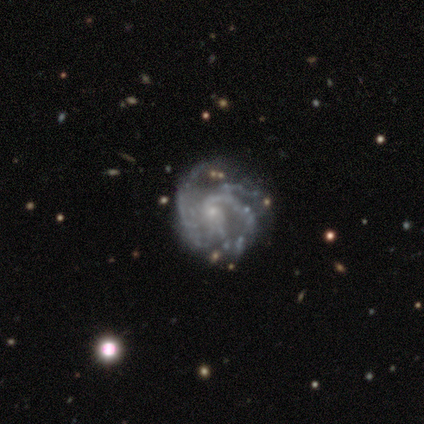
Morphology: type=featured or disk (95%); edge-on=no (100%); bar=no (76%); spiral arms=yes (95%); winding=medium (50%); arm count=can't tell (39%); bulge=small (87%); merging=none (38%).